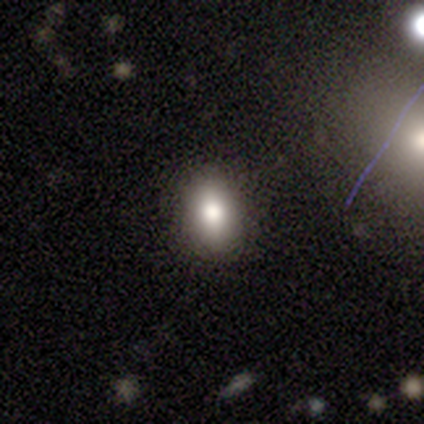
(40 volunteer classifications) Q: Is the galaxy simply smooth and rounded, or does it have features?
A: smooth — 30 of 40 (75%).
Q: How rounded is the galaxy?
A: in between — 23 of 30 (77%).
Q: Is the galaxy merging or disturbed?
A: none — 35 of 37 (95%).